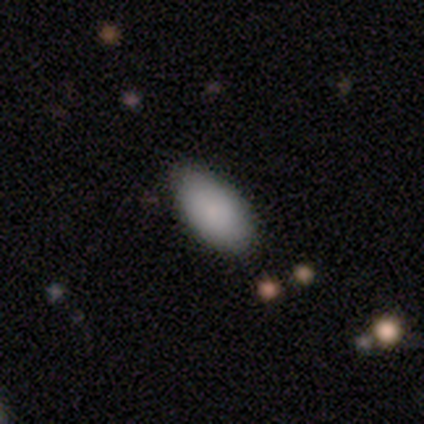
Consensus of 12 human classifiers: Smooth or featured: smooth — 92% (featured or disk — 8%)
How rounded: in between — 100%
Merging: none — 100%